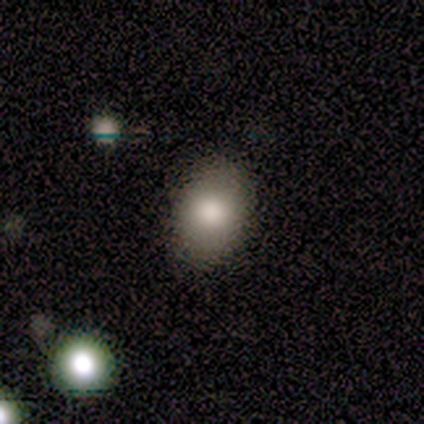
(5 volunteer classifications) smooth_or_featured: smooth (p=0.80) [alt: star or artifact p=0.20]
how_rounded: in between (p=1.00)
merging: none (p=0.75) [alt: minor disturbance p=0.25]